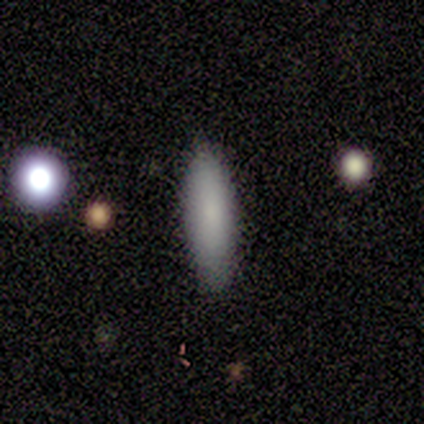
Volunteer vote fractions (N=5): Volunteers were most divided on "how rounded": in between: 60%, round: 20%, cigar-shaped: 20%. More confident: smooth or featured — smooth (100%); merging — none (80%).